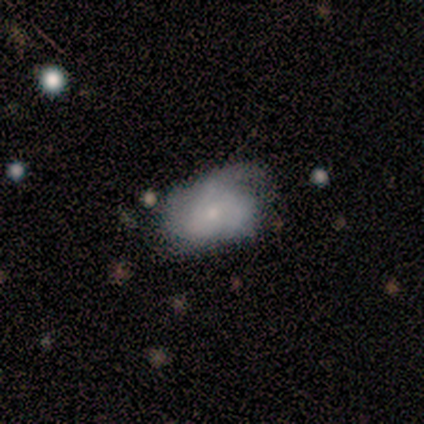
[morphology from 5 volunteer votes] smooth_or_featured: featured or disk (p=0.80) [alt: smooth p=0.20]
disk_edge_on: no (p=1.00)
bar: no (p=0.75) [alt: weak p=0.25]
has_spiral_arms: yes (p=0.75) [alt: no p=0.25]
spiral_winding: tight (p=0.67) [alt: loose p=0.33]
spiral_arm_count: can't tell (p=0.67) [alt: 1 p=0.33]
bulge_size: small (p=1.00)
merging: minor disturbance (p=0.60) [alt: none p=0.40]